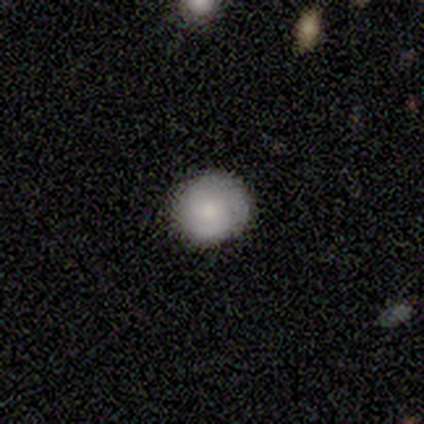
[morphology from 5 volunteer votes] Q: Smooth or featured?
A: smooth (100%)
Q: How rounded?
A: round (100%)
Q: Merging?
A: none (80%); runner-up: minor disturbance (20%)